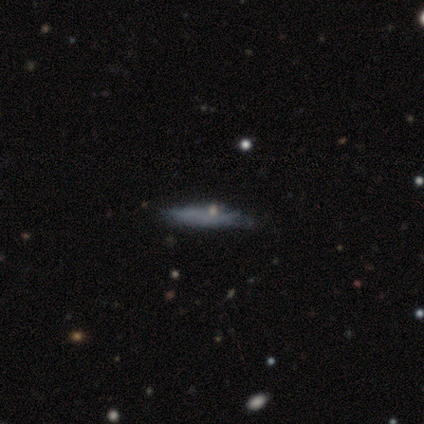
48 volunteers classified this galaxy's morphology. Smooth or featured? smooth (58%)
How rounded? cigar-shaped (89%)
Merging? none (70%)